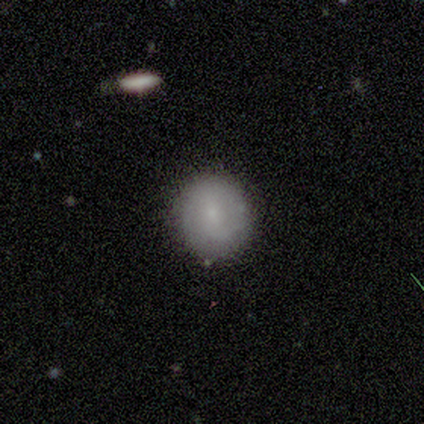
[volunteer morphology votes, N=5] This appears to be a featured or disk galaxy (60%) with a weak bar (67%), tight (50%, tied with loose) spiral arms (67%) and a small central bulge (100%). Merging: none (100%).